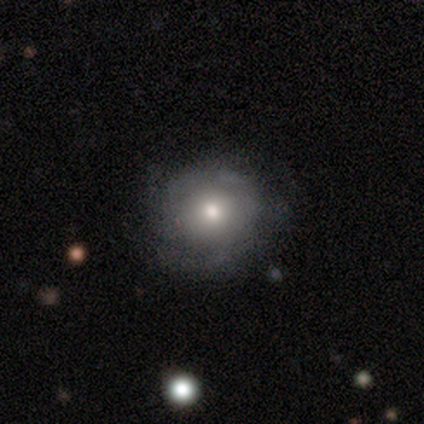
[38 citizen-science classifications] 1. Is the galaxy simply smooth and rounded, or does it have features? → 55% featured or disk, 42% smooth, 3% star or artifact.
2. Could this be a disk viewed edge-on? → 95% no, 5% yes.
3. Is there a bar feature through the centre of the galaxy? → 95% no, 5% weak, 0% strong.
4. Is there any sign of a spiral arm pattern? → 80% yes, 20% no.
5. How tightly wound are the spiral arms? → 38% tight (tied), 38% medium (tied), 25% loose.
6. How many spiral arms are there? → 62% can't tell, 12% 3, 12% 4, 6% 1, 6% 2, 0% more than 4.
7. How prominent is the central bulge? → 75% moderate, 10% large, 10% small, 5% none, 0% dominant.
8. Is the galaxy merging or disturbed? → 59% none, 14% minor disturbance, 8% major disturbance, 3% merger.